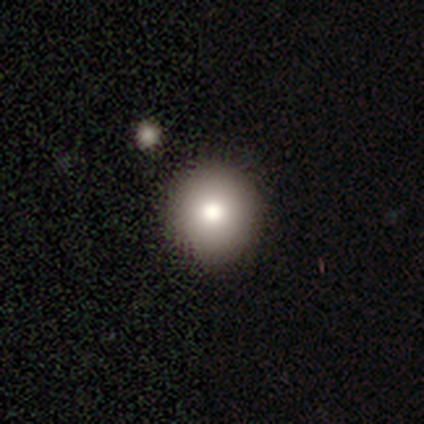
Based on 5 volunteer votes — Smooth or featured: smooth — 80% (star or artifact — 20%)
How rounded: round — 100%
Merging: none — 100%